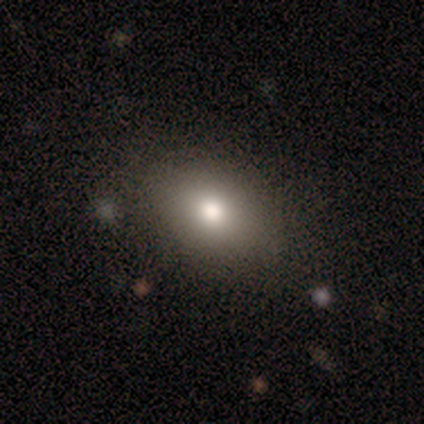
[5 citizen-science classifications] smooth_or_featured: smooth (p=0.60) [alt: featured or disk p=0.20]
how_rounded: in between (p=0.67) [alt: round p=0.33]
merging: none (p=1.00)